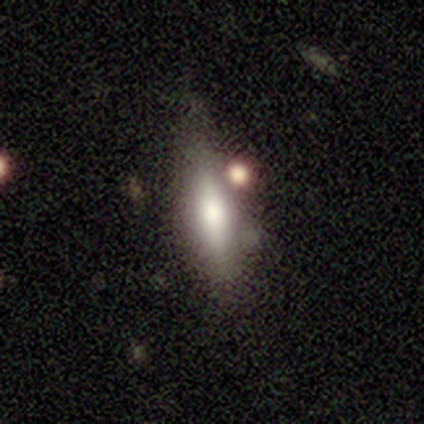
Morphology: type=smooth (60%); roundness=cigar-shaped (67%); merging=minor disturbance (80%).